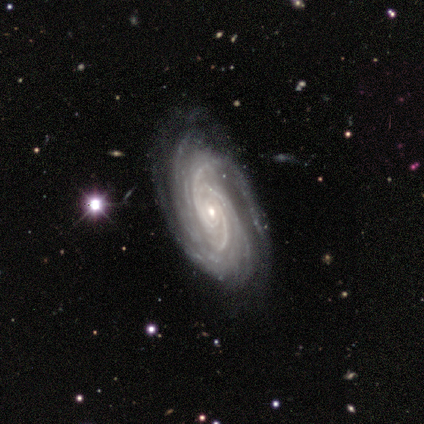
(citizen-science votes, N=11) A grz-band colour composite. It shows a featured or disk galaxy (91%) with no bar (60%), 3 (30%, tied with can't tell) tight (60%) spiral arms (100%) and a small central bulge (60%). Merging: none (91%).